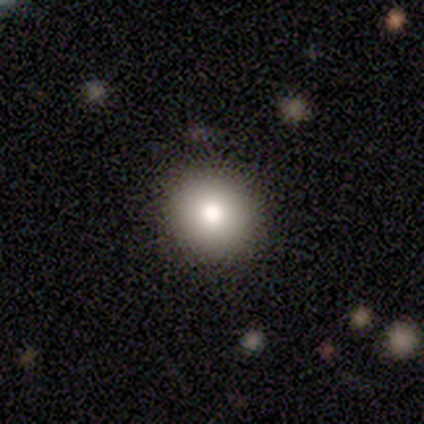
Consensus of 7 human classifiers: A smooth galaxy with no disk features (71%) that is round (60%). Merging: none (83%).